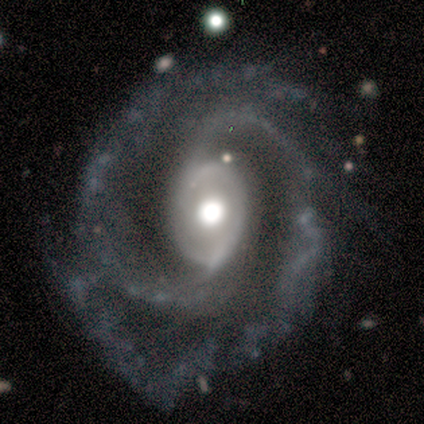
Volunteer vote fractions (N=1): Smooth or featured: featured or disk — 100%
Edge-on disk: no — 100%
Bar: weak — 100%
Spiral arms: yes — 100%
Spiral winding: medium — 100%
Spiral arm count: 2 — 100%
Bulge size: moderate — 100%
Merging: none — 100%